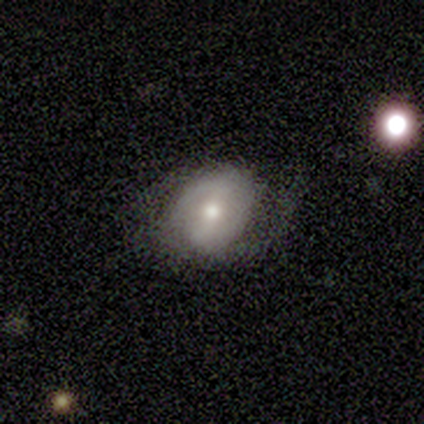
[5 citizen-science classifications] Smooth or featured? 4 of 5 (80%) said featured or disk. Edge-on disk? 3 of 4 (75%) said no. Bar? 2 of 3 (67%) said strong. Spiral arms? 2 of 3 (67%) said yes. Spiral winding? 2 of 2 (100%) said medium. Spiral arm count? 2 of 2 (100%) said 2. Bulge size? 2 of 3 (67%) said moderate. Merging? 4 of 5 (80%) said none.